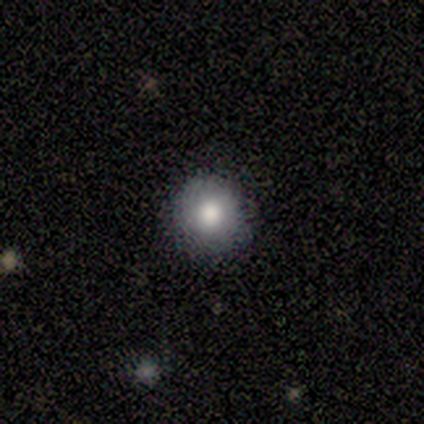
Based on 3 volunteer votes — Q: Smooth or featured?
A: smooth (67%); runner-up: featured or disk (33%)
Q: How rounded?
A: round (100%)
Q: Merging?
A: none (100%)